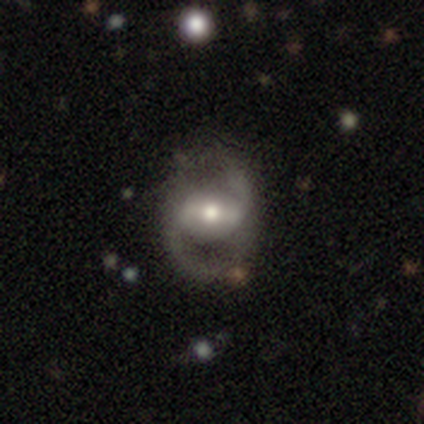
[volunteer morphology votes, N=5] Smooth or featured? featured or disk (80%)
Edge-on disk? no (75%)
Bar? strong (33%, tied with weak and no)
Spiral arms? yes (67%)
Spiral winding? loose (100%)
Spiral arm count? 2 (100%)
Bulge size? moderate (67%)
Merging? none (75%)